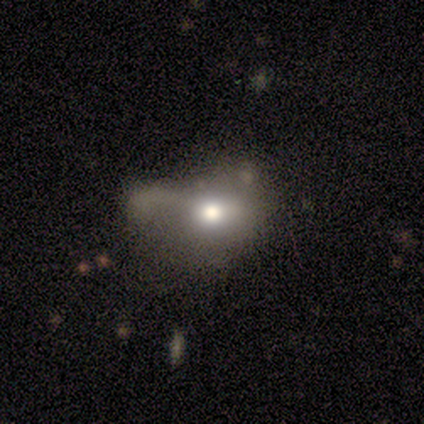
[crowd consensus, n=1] A smooth galaxy with no disk features (100%) that is round (100%).

Vote fractions:
- Smooth or featured? smooth: 100% / featured or disk: 0% / star or artifact: 0%
- How rounded? round: 100% / in between: 0% / cigar-shaped: 0%
- Merging? minor disturbance: 100% / none: 0% / major disturbance: 0% / merger: 0%